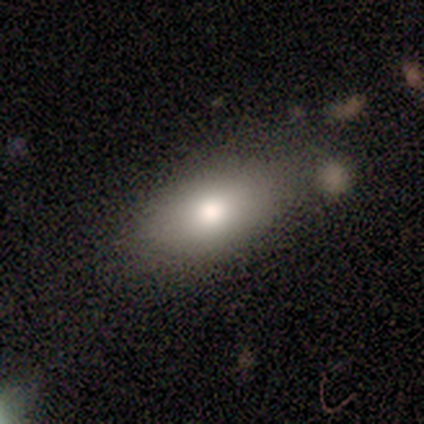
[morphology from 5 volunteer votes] smooth 60%, featured or disk 20%, star or artifact 20%. Down the decision tree: how rounded — in between (67%); merging — none (75%).